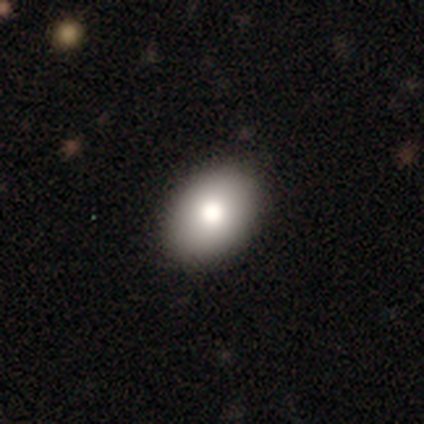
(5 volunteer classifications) smooth 80%, featured or disk 20%, star or artifact 0%. Down the decision tree: how rounded — in between (75%); merging — none (100%).